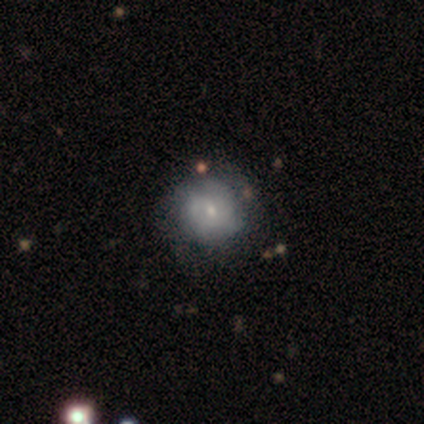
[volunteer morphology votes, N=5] smooth 60%, featured or disk 40%, star or artifact 0%. Down the decision tree: how rounded — round (100%); merging — none (40%, tied with minor disturbance).